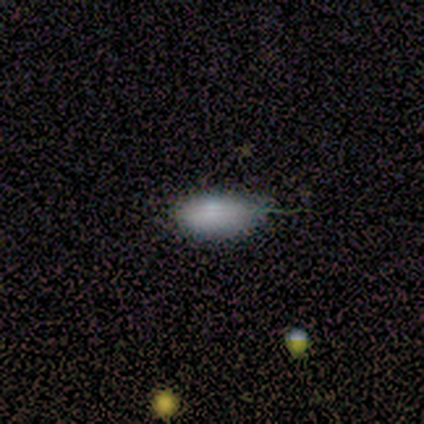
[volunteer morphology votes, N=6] Smooth or featured: smooth — 100%
How rounded: in between — 100%
Merging: none — 83% (minor disturbance — 17%)